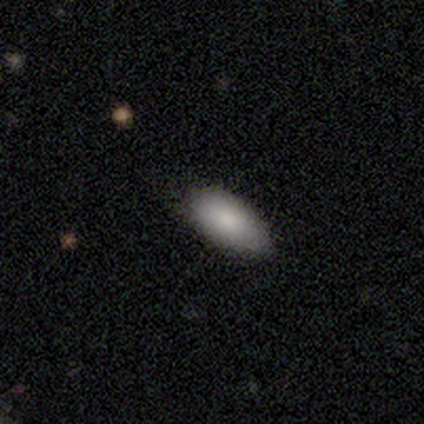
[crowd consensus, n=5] A smooth galaxy with no disk features (80%) that is in between round and cigar-shaped (100%).

Vote fractions:
- Smooth or featured? smooth: 80% / featured or disk: 20% / star or artifact: 0%
- How rounded? in between: 100% / round: 0% / cigar-shaped: 0%
- Merging? none: 40% (tied) / minor disturbance: 40% (tied) / major disturbance: 20% / merger: 0%